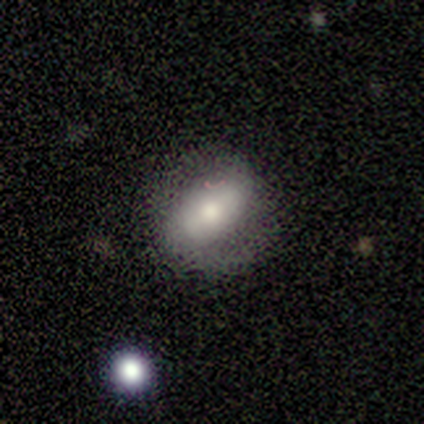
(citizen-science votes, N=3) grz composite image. It shows a smooth galaxy with no disk features (67%) that is in between round and cigar-shaped (100%). Merging: none (100%).